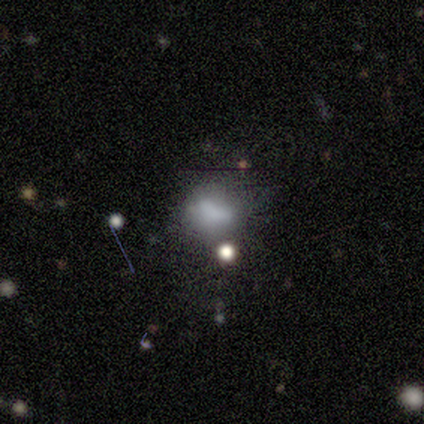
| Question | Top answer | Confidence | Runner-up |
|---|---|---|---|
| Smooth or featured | smooth | 40% | tied: star or artifact (40%) |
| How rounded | in between | 100% | — |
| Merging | major disturbance | 67% | merger (33%) |